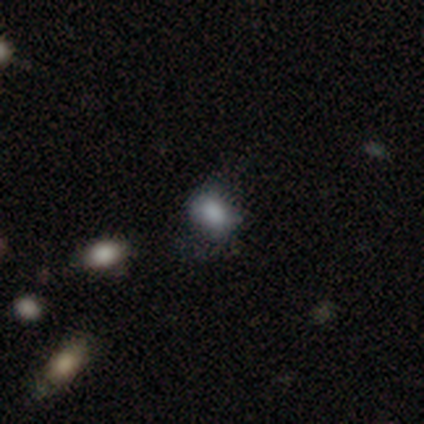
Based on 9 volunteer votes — Morphology: type=smooth (78%); roundness=round (57%); merging=minor disturbance (57%).